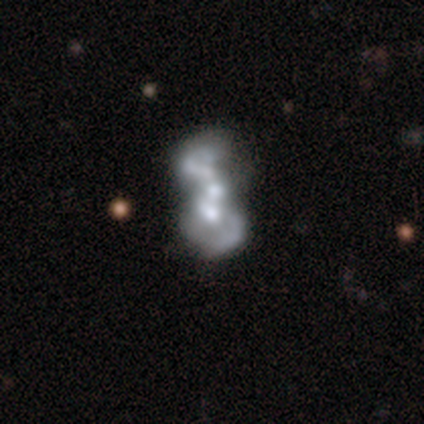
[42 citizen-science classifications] featured or disk 76%, smooth 14%, star or artifact 10%. Down the decision tree: edge-on disk — no (100%); bar — no (78%); spiral arms — no (59%); bulge size — moderate (44%); merging — merger (79%).